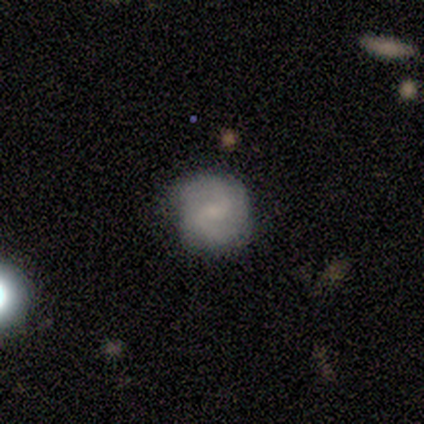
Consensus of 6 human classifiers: Smooth or featured?
  - featured or disk: 83% *
  - smooth: 17%
  - star or artifact: 0%
Edge-on disk?
  - no: 100% *
  - yes: 0%
Bar?
  - weak: 80% *
  - no: 20%
  - strong: 0%
Spiral arms?
  - yes: 100% *
  - no: 0%
Spiral winding?
  - medium: 80% *
  - tight: 20%
  - loose: 0%
Spiral arm count?
  - 2: 80% *
  - can't tell: 20%
  - 1: 0%
  - 3: 0%
  - 4: 0%
  - more than 4: 0%
Bulge size?
  - small: 60% *
  - none: 40%
  - dominant: 0%
  - large: 0%
  - moderate: 0%
Merging?
  - none: 67% *
  - minor disturbance: 17%
  - merger: 17%
  - major disturbance: 0%